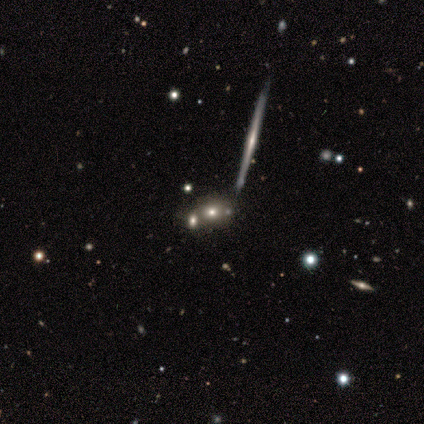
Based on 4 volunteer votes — This is likely a smooth galaxy (75%). How rounded: clearly round (100%). Merging: possibly none (50%).